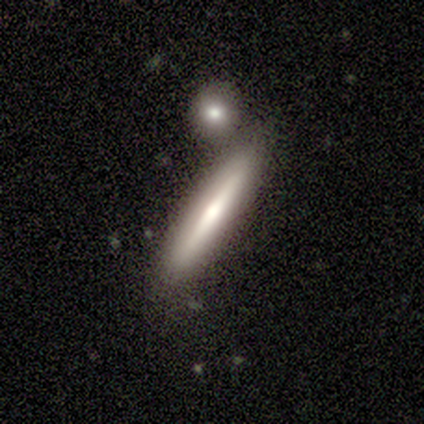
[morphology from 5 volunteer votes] Q: Smooth or featured?
A: smooth (40%); tied with: featured or disk (40%)
Q: How rounded?
A: cigar-shaped (100%)
Q: Merging?
A: none (75%); runner-up: merger (25%)